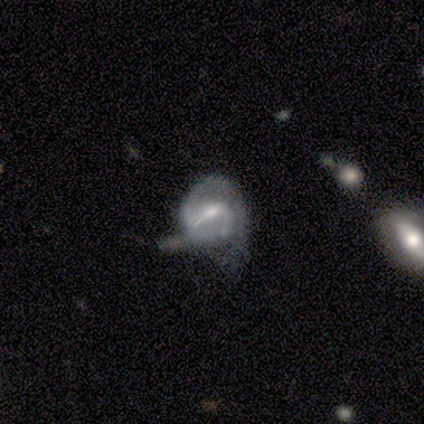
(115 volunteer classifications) smooth_or_featured: featured or disk (p=0.87) [alt: smooth p=0.07]
disk_edge_on: no (p=0.95) [alt: yes p=0.05]
bar: weak (p=0.57) [alt: no p=0.27]
has_spiral_arms: yes (p=0.86) [alt: no p=0.14]
spiral_winding: tight (p=0.59) [alt: medium p=0.33]
spiral_arm_count: 2 (p=0.46) [alt: 1 p=0.41]
bulge_size: moderate (p=0.55) [alt: small p=0.38]
merging: minor disturbance (p=0.41) [alt: major disturbance p=0.33]